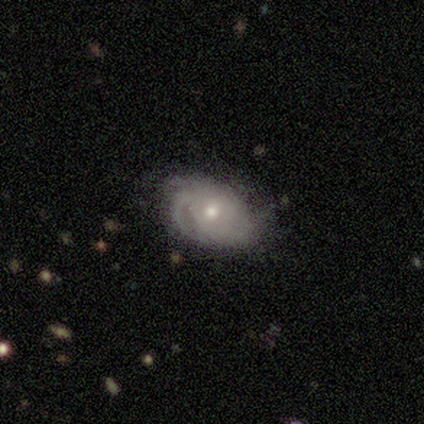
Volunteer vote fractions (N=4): Volunteers were most divided on "smooth or featured" (2-way tie): smooth: 50%, featured or disk: 50%, star or artifact: 0%. More confident: how rounded — in between (100%); merging — none (50%).